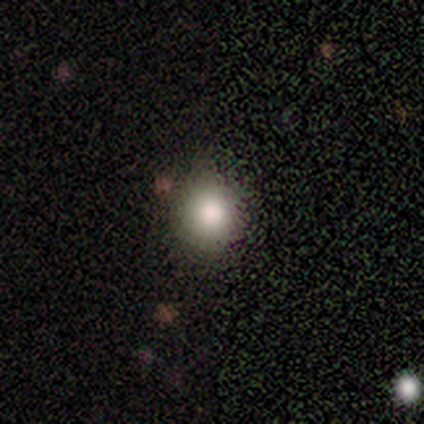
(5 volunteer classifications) Overall: smooth (80%). How rounded: round (75%). Merging: none (100%).